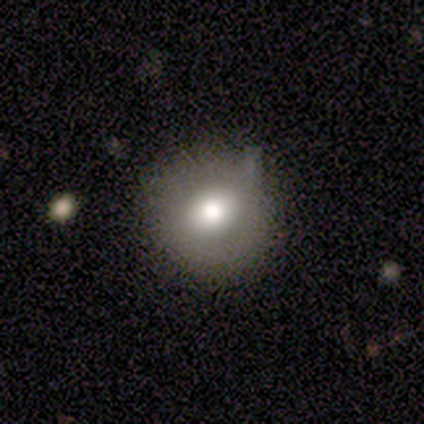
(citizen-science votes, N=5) This appears to be a smooth galaxy with no disk features (40%, tied with featured or disk) that is round (50%, tied with in between). Merging: none (75%).